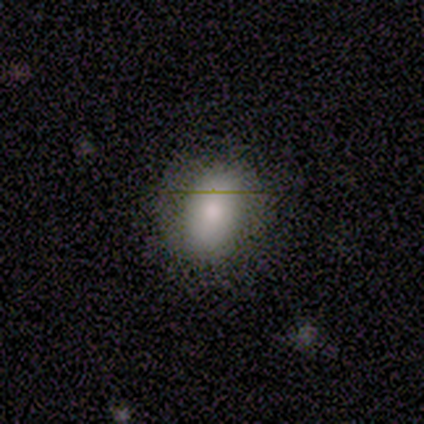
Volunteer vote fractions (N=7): This appears to be a smooth galaxy with no disk features (86%) that is in between round and cigar-shaped (83%). Merging: none (86%).